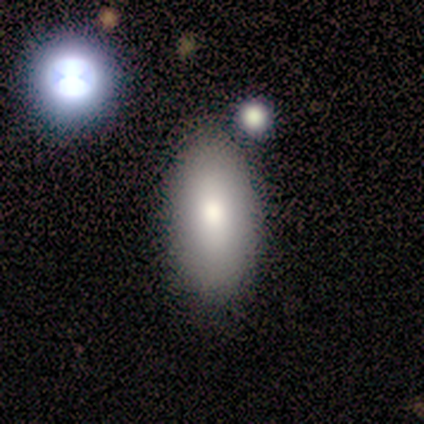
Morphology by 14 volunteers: A smooth galaxy with no disk features (71%) that is in between round and cigar-shaped (80%). Merging: none (91%).